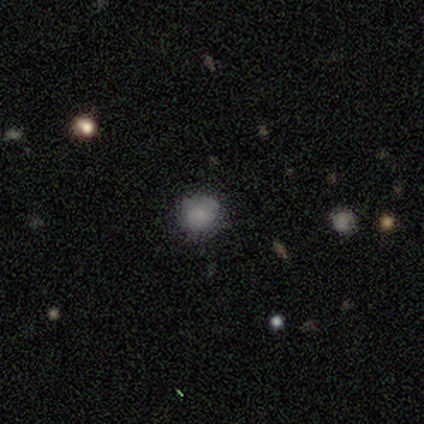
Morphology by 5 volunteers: Smooth or featured: smooth — 80% (star or artifact — 20%)
How rounded: round — 100%
Merging: none — 100%